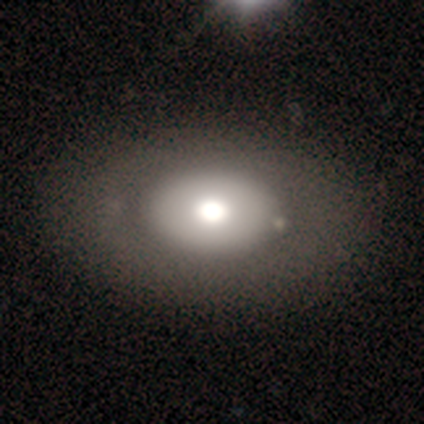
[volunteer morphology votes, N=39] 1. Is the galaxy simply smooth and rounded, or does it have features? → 54% smooth, 44% featured or disk, 3% star or artifact.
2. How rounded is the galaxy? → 62% in between, 38% round, 0% cigar-shaped.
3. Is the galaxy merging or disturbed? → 61% none, 13% merger, 0% minor disturbance, 0% major disturbance.